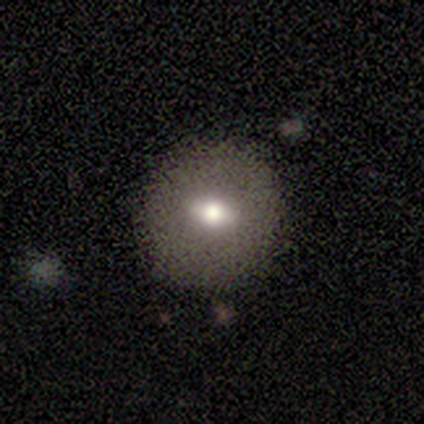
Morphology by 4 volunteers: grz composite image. It shows a smooth galaxy with no disk features (75%) that is round (100%). Merging: none (100%).